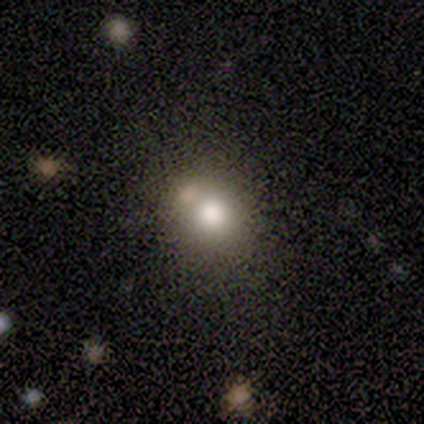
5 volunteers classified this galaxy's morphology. Q: Smooth or featured?
A: smooth (80%); runner-up: featured or disk (20%)
Q: How rounded?
A: round (75%); runner-up: in between (25%)
Q: Merging?
A: none (60%); runner-up: merger (40%)